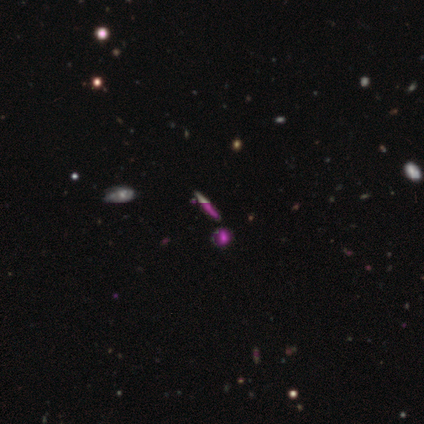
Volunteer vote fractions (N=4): This is possibly a star or artifact rather than a galaxy (50%).